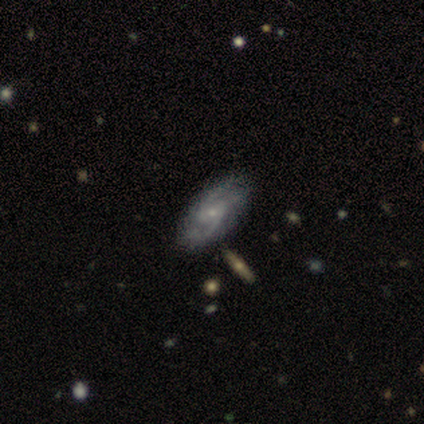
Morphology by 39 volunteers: A featured or disk galaxy (95%) with no bar (67%), 2 (47%) medium (56%) spiral arms (89%) and a small central bulge (86%). Merging: none (86%).